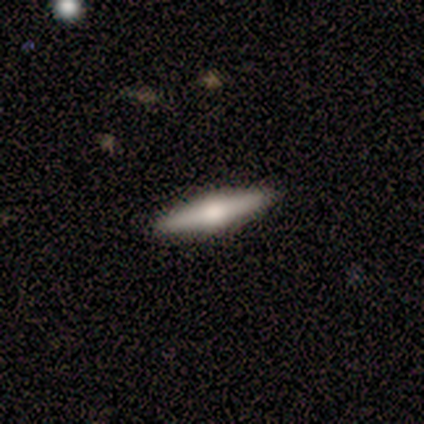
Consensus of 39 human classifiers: Q: Smooth or featured?
A: featured or disk (54%); runner-up: smooth (41%)
Q: Edge-on disk?
A: yes (100%)
Q: Edge-on bulge?
A: rounded (95%); runner-up: none (5%)
Q: Merging?
A: none (92%); runner-up: merger (5%)